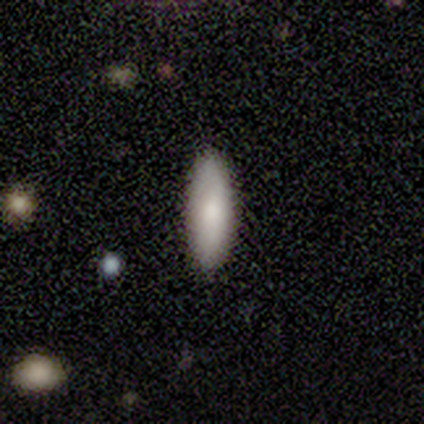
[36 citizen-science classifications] A smooth galaxy with no disk features (86%) that is cigar-shaped (55%).

Vote fractions:
- Smooth or featured? smooth: 86% / featured or disk: 14% / star or artifact: 0%
- How rounded? cigar-shaped: 55% / in between: 45% / round: 0%
- Merging? none: 97% / major disturbance: 3% / minor disturbance: 0% / merger: 0%